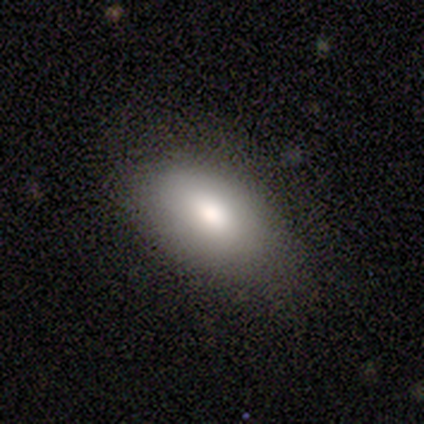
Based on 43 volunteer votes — Overall: smooth (95%). How rounded: in between (93%). Merging: none (76%).